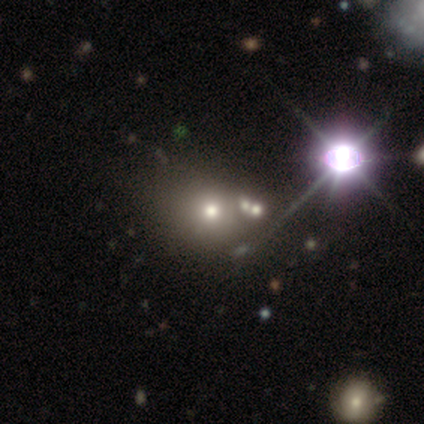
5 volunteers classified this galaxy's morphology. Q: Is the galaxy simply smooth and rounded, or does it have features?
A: star or artifact — 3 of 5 (60%).